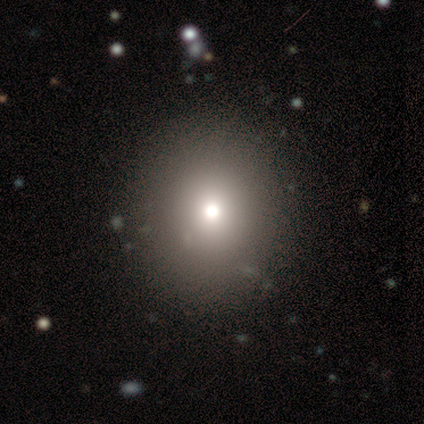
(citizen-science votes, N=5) Smooth or featured? smooth (60%)
How rounded? in between (67%)
Merging? none (100%)